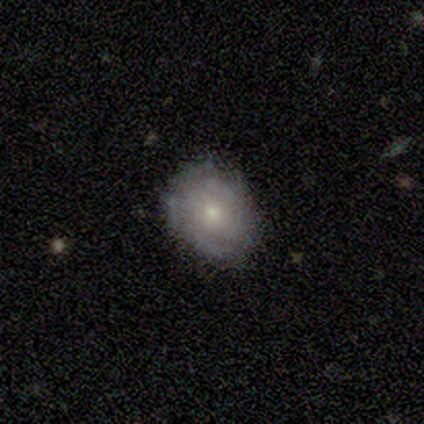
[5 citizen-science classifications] This appears to be a featured or disk galaxy (60%) with no bar (100%), 2 (100%) tight (100%) spiral arms (50%, tied with no) and a moderate central bulge (100%). Merging: none (80%).